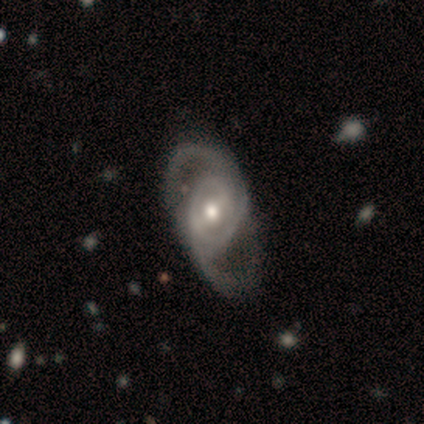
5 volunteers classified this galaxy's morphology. A featured or disk galaxy (80%) with no bar (50%), 2 (75%) medium (50%) spiral arms (100%) and a moderate central bulge (75%).

Vote fractions:
- Smooth or featured? featured or disk: 80% / star or artifact: 20% / smooth: 0%
- Edge-on disk? no: 100% / yes: 0%
- Bar? no: 50% / strong: 25% / weak: 25%
- Spiral arms? yes: 100% / no: 0%
- Spiral winding? medium: 50% / tight: 25% / loose: 25%
- Spiral arm count? 2: 75% / 3: 25% / 1: 0% / 4: 0% / more than 4: 0% / can't tell: 0%
- Bulge size? moderate: 75% / large: 25% / dominant: 0% / small: 0% / none: 0%
- Merging? none: 75% / minor disturbance: 25% / major disturbance: 0% / merger: 0%